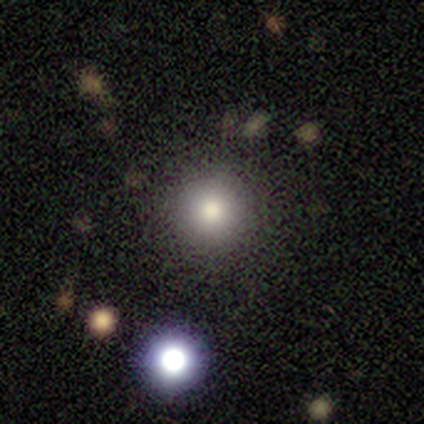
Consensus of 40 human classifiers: Overall: smooth (75%). How rounded: round (100%). Merging: none (86%).